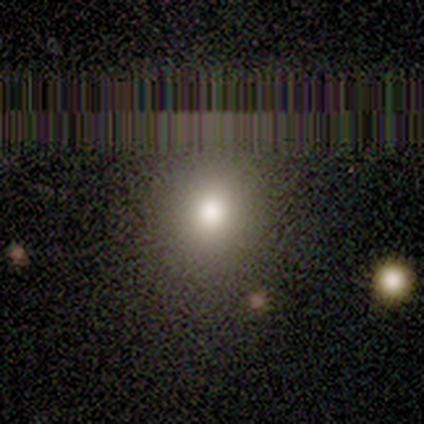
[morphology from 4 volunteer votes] smooth_or_featured: smooth (p=0.75) [alt: star or artifact p=0.25]
how_rounded: round (p=1.00)
merging: none (p=1.00)